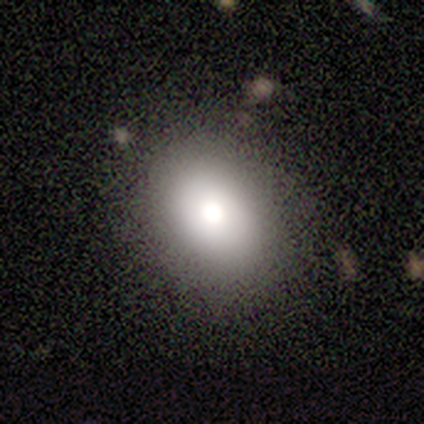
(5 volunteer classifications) Morphology: type=smooth (80%); roundness=round (50%, tied with in between); merging=none (100%).